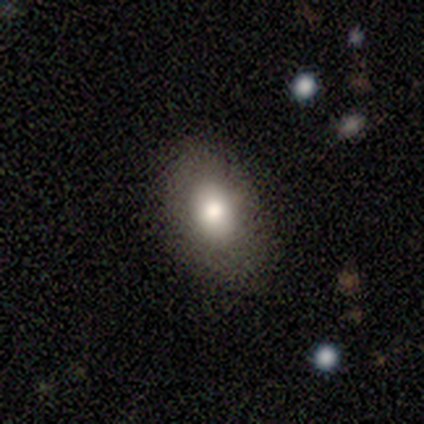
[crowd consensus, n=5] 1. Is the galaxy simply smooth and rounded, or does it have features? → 60% smooth, 40% featured or disk, 0% star or artifact.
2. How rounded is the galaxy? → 100% in between, 0% round, 0% cigar-shaped.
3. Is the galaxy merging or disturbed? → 60% none, 40% minor disturbance, 0% major disturbance, 0% merger.